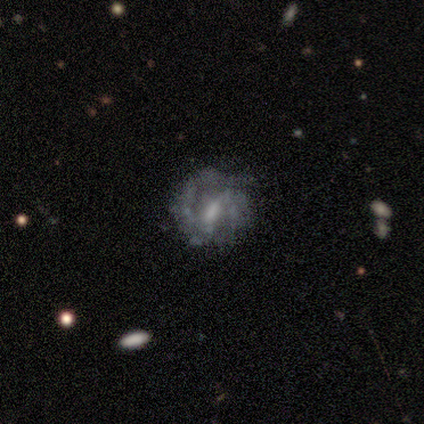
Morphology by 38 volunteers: Volunteers were most divided on "bulge size": moderate: 44%, small: 28%, none: 25%, large: 3%, dominant: 0%. More confident: edge-on disk — no (97%); spiral arms — yes (88%); smooth or featured — featured or disk (87%); spiral winding — medium (64%); merging — none (62%); spiral arm count — 2 (57%); bar — weak (56%).